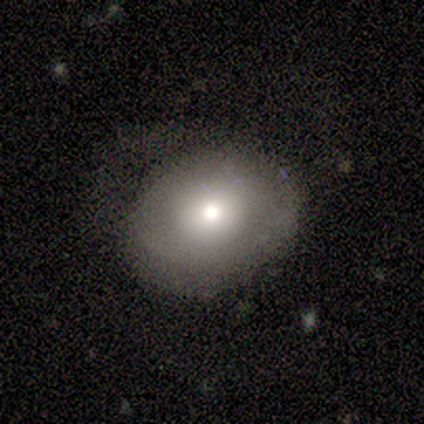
This is clearly a smooth galaxy (100%). How rounded: likely in between (60%). Merging: clearly none (80%).